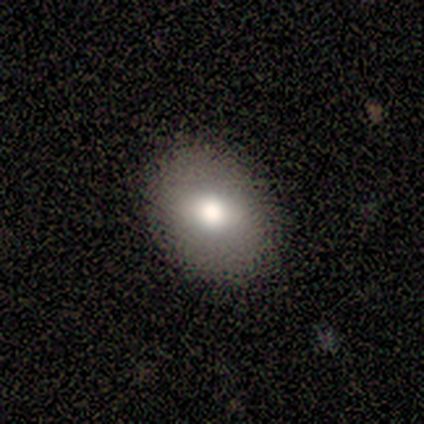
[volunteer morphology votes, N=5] Overall: smooth (60%; featured or disk 20%). How rounded: round (100%). Merging: none (100%).